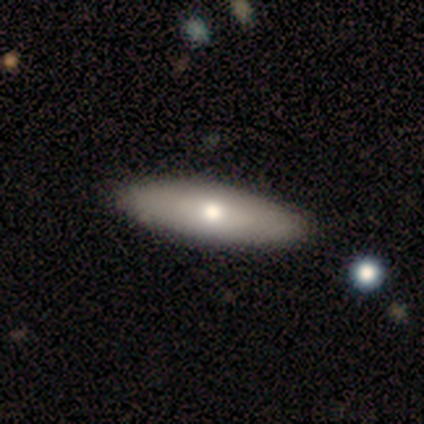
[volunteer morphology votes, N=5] Overall: featured or disk (60%; smooth 40%). Edge-on disk: no (67%; yes 33%). Bar: no (100%). Spiral arms: no (100%). Bulge size: moderate (100%). Merging: none (100%).